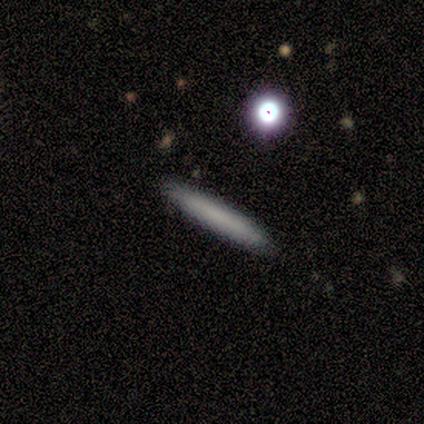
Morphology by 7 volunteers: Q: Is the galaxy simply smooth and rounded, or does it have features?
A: smooth — 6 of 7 (86%).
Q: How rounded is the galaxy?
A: cigar-shaped — 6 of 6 (100%).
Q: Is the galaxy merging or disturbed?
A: none — 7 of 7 (100%).